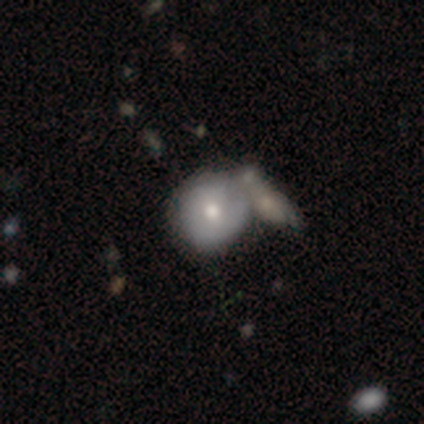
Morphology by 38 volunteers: Overall: smooth (74%). How rounded: round (89%). Merging: merger (49%; none 30%).